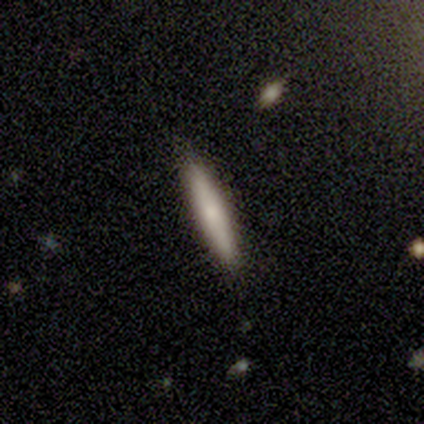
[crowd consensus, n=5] Smooth or featured: smooth — 80% (featured or disk — 20%)
How rounded: cigar-shaped — 100%
Merging: none — 100%